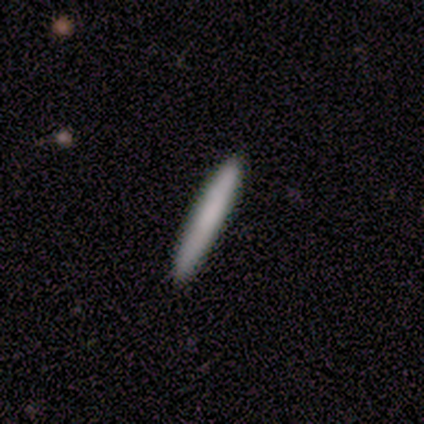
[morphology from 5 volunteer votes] Smooth or featured? smooth (80%)
How rounded? cigar-shaped (100%)
Merging? none (100%)